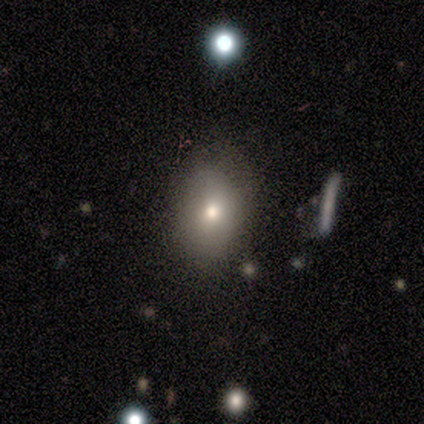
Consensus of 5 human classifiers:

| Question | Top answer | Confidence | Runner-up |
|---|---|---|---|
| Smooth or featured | smooth | 40% | tied: star or artifact (40%) |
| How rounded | in between | 50% | tied: cigar-shaped (50%) |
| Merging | none | 67% | minor disturbance (33%) |